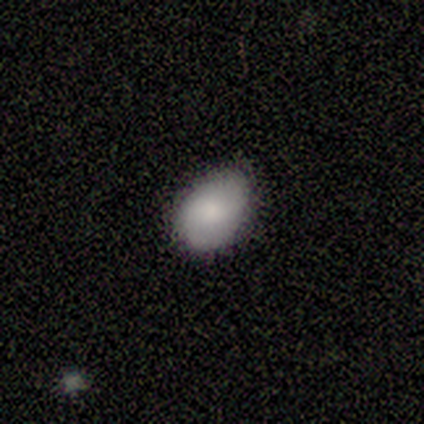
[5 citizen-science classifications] Morphology: type=smooth (80%); roundness=in between (75%); merging=none (80%).